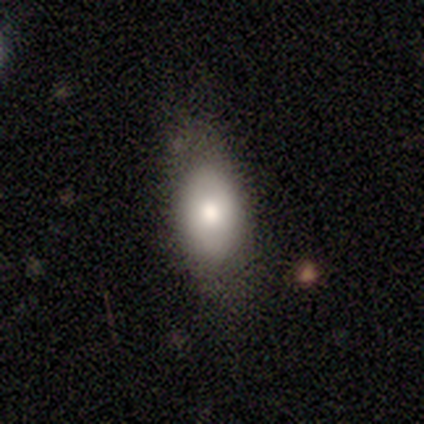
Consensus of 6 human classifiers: Morphology: type=smooth (83%); roundness=in between (100%); merging=none (50%, tied with minor disturbance).